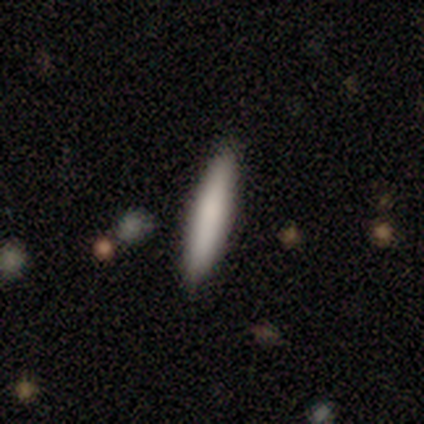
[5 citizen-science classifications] Overall: smooth (80%). How rounded: cigar-shaped (100%). Merging: none (75%).